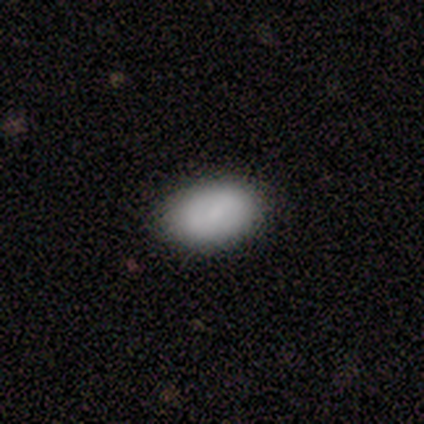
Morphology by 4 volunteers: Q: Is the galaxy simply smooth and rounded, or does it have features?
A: smooth — 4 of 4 (100%).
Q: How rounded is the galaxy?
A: in between — 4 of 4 (100%).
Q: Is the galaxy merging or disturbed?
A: none — 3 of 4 (75%).